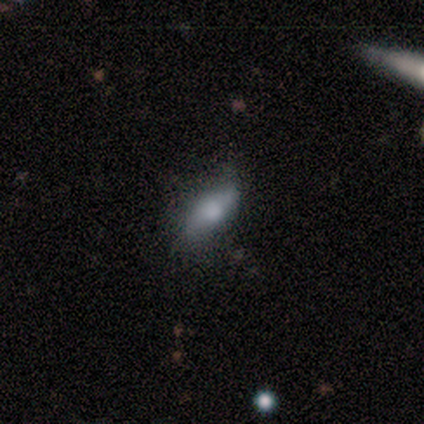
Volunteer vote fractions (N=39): smooth 62%, featured or disk 31%, star or artifact 8%. Down the decision tree: how rounded — in between (92%); merging — none (58%).